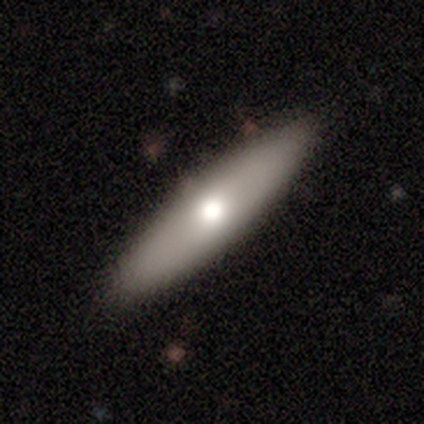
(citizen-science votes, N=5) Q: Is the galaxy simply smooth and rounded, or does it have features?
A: smooth — 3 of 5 (60%).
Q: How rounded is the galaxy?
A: in between — 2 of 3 (67%).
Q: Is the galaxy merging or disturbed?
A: none — 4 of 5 (80%).